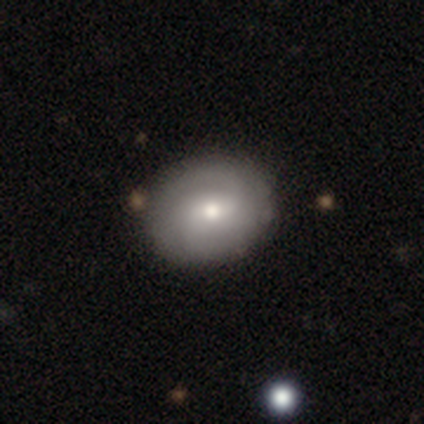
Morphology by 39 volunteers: This appears to be a smooth galaxy with no disk features (54%) that is round (52%). Merging: none (82%).